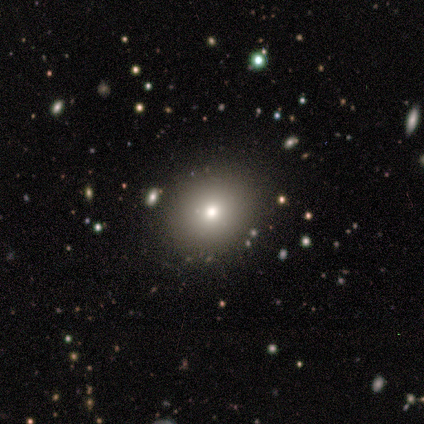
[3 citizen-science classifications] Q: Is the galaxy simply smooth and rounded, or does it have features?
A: smooth — 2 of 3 (67%).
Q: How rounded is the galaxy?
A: round — 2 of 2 (100%).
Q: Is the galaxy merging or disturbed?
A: none — 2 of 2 (100%).